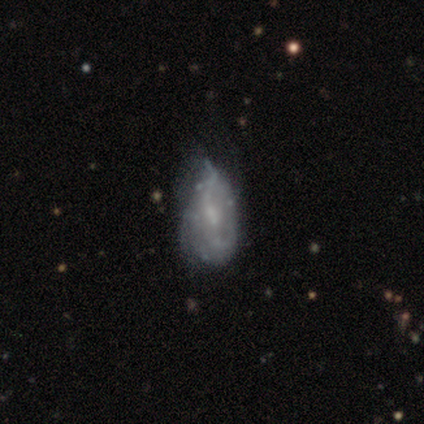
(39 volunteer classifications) Morphology: type=featured or disk (54%); edge-on=no (100%); bar=no (57%); spiral arms=no (62%); bulge=small (52%); merging=minor disturbance (40%).